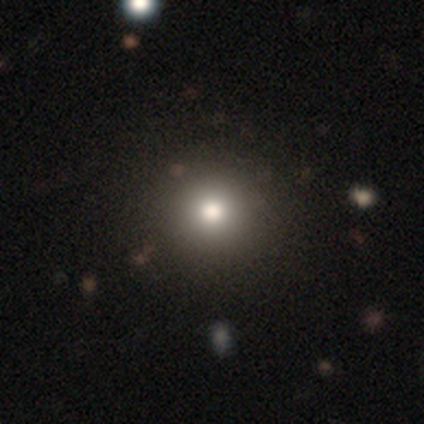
Smooth or featured? 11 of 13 (85%) said smooth. How rounded? 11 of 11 (100%) said round. Merging? 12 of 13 (92%) said none.